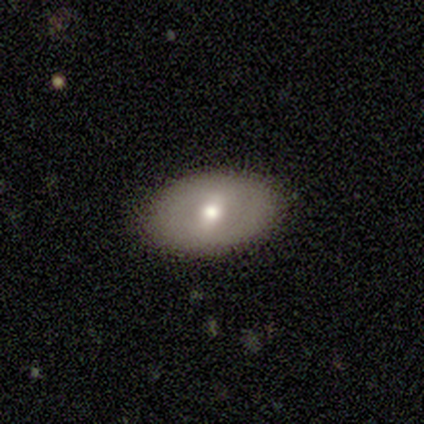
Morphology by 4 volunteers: type=smooth (100%); roundness=in between (100%); merging=none (100%).